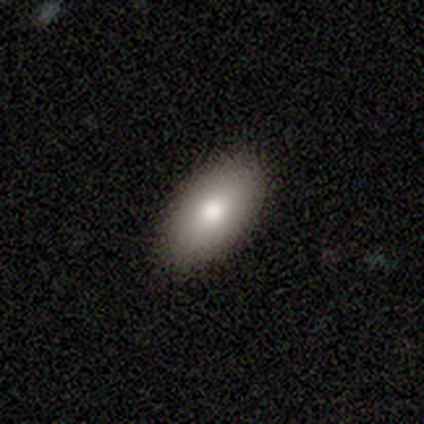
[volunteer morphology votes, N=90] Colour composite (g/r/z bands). It shows a smooth galaxy with no disk features (76%) that is in between round and cigar-shaped (90%). Merging: none (90%).